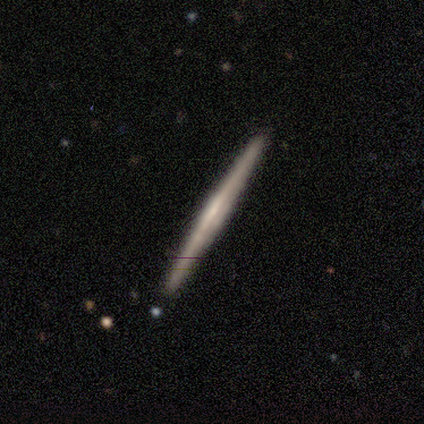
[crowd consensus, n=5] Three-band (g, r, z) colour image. It shows a featured or disk galaxy (60%) viewed edge-on (100%) with no central bulge (67%). Merging: none (100%).